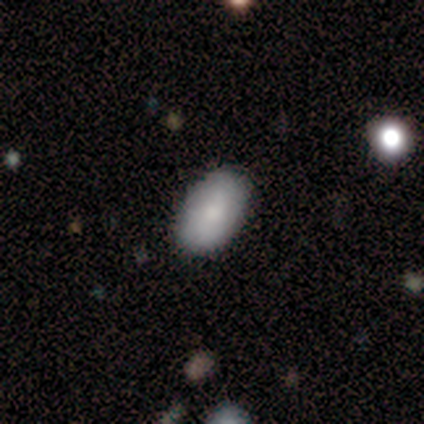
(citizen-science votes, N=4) Q: Smooth or featured?
A: smooth (100%)
Q: How rounded?
A: in between (100%)
Q: Merging?
A: none (100%)